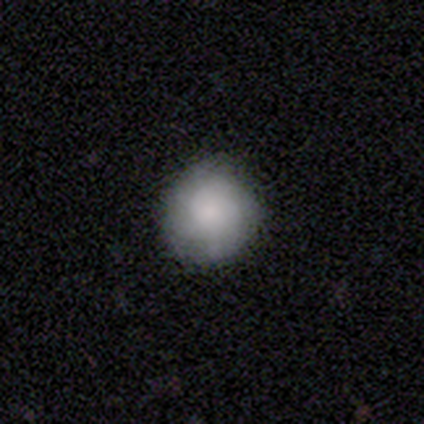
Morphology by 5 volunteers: A smooth galaxy with no disk features (80%) that is round (100%).

Vote fractions:
- Smooth or featured? smooth: 80% / featured or disk: 20% / star or artifact: 0%
- How rounded? round: 100% / in between: 0% / cigar-shaped: 0%
- Merging? none: 60% / minor disturbance: 40% / major disturbance: 0% / merger: 0%